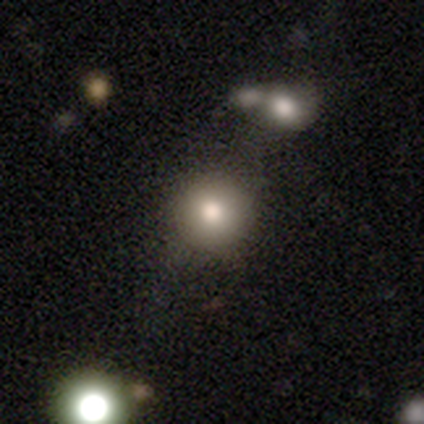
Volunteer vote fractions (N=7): Smooth or featured? smooth (71%)
How rounded? round (100%)
Merging? none (83%)